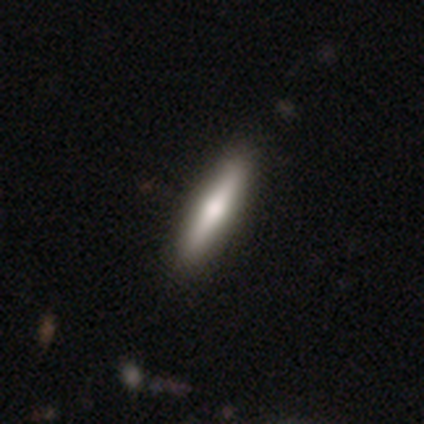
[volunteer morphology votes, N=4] smooth 100%, featured or disk 0%, star or artifact 0%. Down the decision tree: how rounded — cigar-shaped (100%); merging — none (75%).